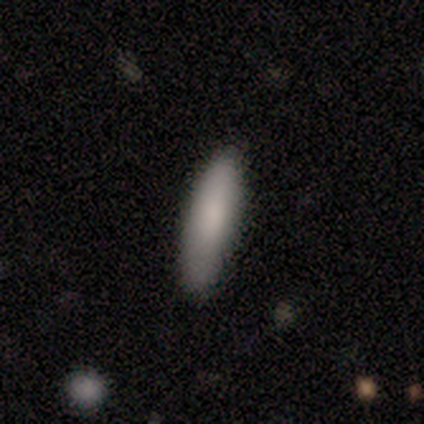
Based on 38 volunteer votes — smooth-or-featured: smooth: 84% | featured or disk: 11% | star or artifact: 5%
  how-rounded: cigar-shaped: 75% | in between: 25% | round: 0%
  merging: none: 83% | minor disturbance: 17% | major disturbance: 0% | merger: 0%